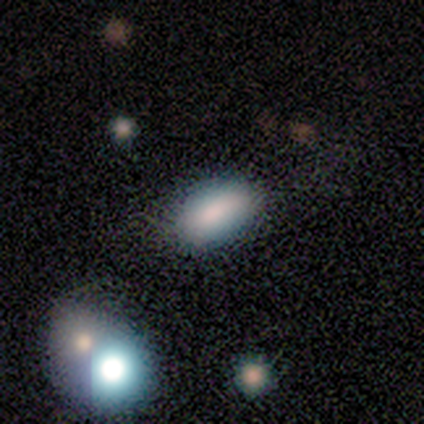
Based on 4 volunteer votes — Smooth or featured: smooth — 75% (star or artifact — 25%)
How rounded: in between — 67% (round — 33%)
Merging: merger — 67% (none — 33%)